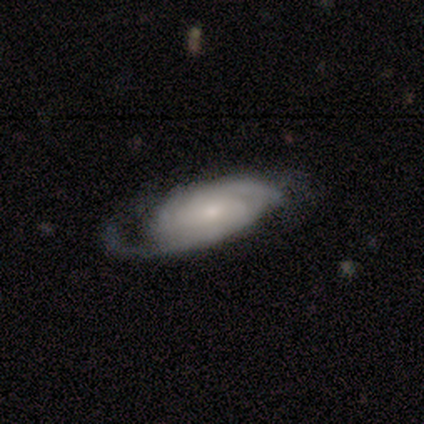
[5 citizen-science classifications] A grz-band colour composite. It shows a featured or disk galaxy (80%) with a weak bar (67%), 2 (100%) tight (100%) spiral arms (67%) and a small central bulge (67%). Merging: none (40%, tied with minor disturbance).